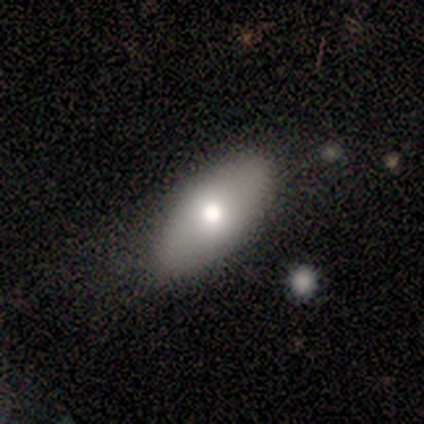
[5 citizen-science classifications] This appears to be a smooth galaxy with no disk features (80%) that is in between round and cigar-shaped (100%). Merging: none (60%).